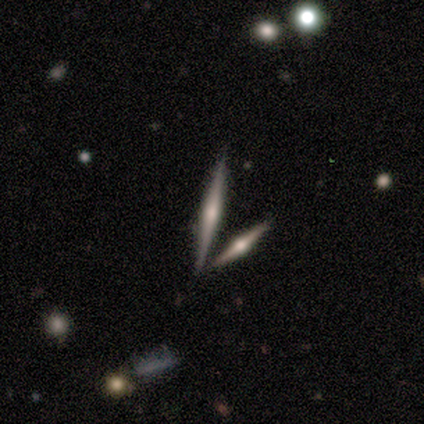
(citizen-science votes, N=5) A featured or disk galaxy (100%) viewed edge-on (100%) with a rounded central bulge (80%).

Vote fractions:
- Smooth or featured? featured or disk: 100% / smooth: 0% / star or artifact: 0%
- Edge-on disk? yes: 100% / no: 0%
- Edge-on bulge? rounded: 80% / none: 20% / boxy: 0%
- Merging? none: 80% / merger: 20% / minor disturbance: 0% / major disturbance: 0%